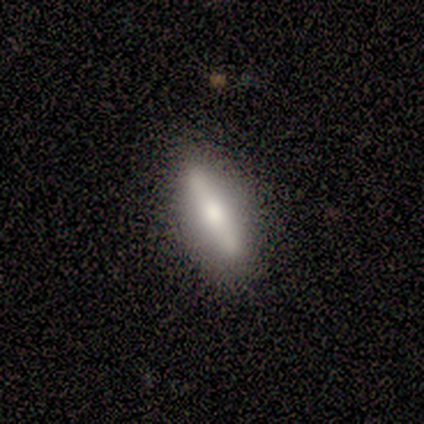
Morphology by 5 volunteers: Smooth or featured?
  - featured or disk: 60% *
  - smooth: 40%
  - star or artifact: 0%
Edge-on disk?
  - yes: 100% *
  - no: 0%
Edge-on bulge?
  - boxy: 67% *
  - rounded: 33%
  - none: 0%
Merging?
  - none: 100% *
  - minor disturbance: 0%
  - major disturbance: 0%
  - merger: 0%